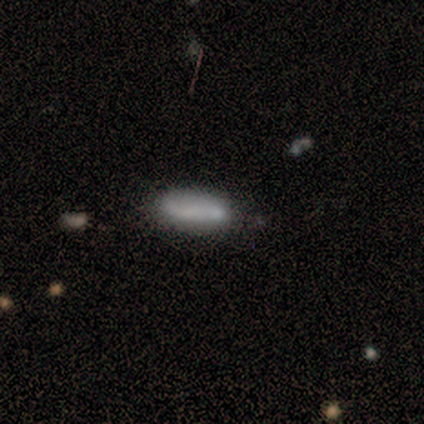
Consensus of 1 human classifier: This is clearly a smooth galaxy (100%). How rounded: clearly in between (100%). Merging: clearly none (100%).